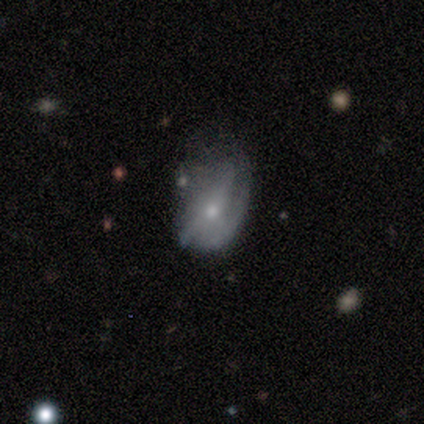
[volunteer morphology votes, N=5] Smooth or featured: featured or disk — 80% (smooth — 20%)
Edge-on disk: no — 100%
Bar: no — 100%
Spiral arms: no — 100%
Bulge size: small — 75% (moderate — 25%)
Merging: minor disturbance — 40% (tied with major disturbance — 40%)